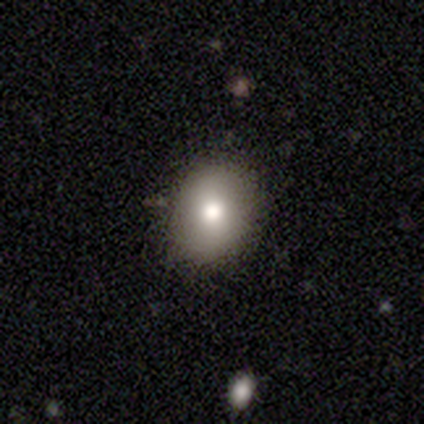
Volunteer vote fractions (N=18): This appears to be a smooth galaxy with no disk features (94%) that is round (53%). Merging: none (67%).